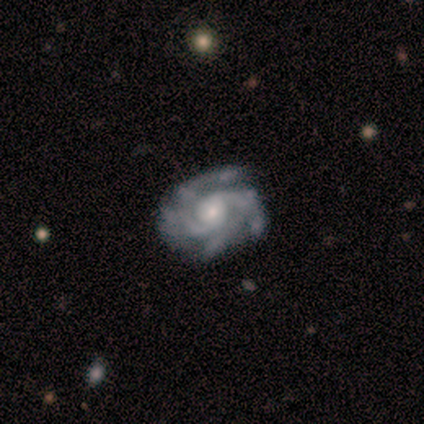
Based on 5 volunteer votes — Smooth or featured?
  - featured or disk: 80% *
  - star or artifact: 20%
  - smooth: 0%
Edge-on disk?
  - no: 100% *
  - yes: 0%
Bar?
  - no: 75% *
  - weak: 25%
  - strong: 0%
Spiral arms?
  - yes: 100% *
  - no: 0%
Spiral winding?
  - tight: 100% *
  - medium: 0%
  - loose: 0%
Spiral arm count?
  - 4: 50% *
  - 2: 25%
  - 3: 25%
  - 1: 0%
  - more than 4: 0%
  - can't tell: 0%
Bulge size?
  - moderate: 50% * (tied)
  - small: 50% * (tied)
  - dominant: 0%
  - large: 0%
  - none: 0%
Merging?
  - none: 75% *
  - minor disturbance: 25%
  - major disturbance: 0%
  - merger: 0%